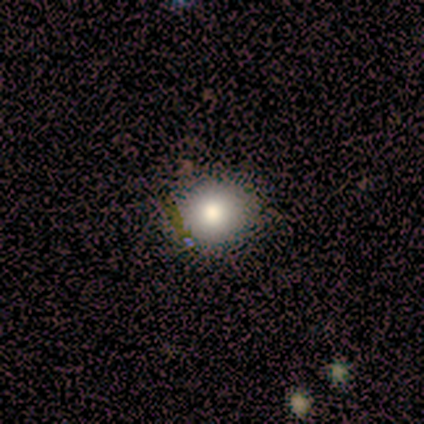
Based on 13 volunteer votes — Overall: smooth (92%). How rounded: round (67%; in between 33%). Merging: none (83%).